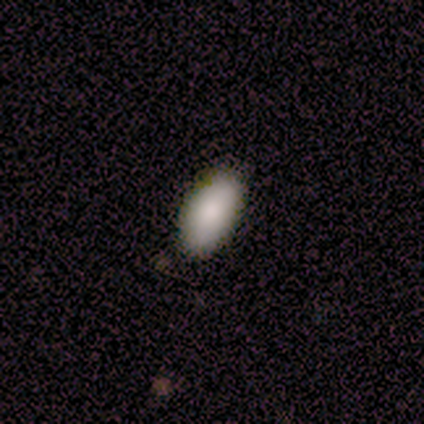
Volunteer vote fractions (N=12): smooth-or-featured: smooth: 83% | featured or disk: 17% | star or artifact: 0%
  how-rounded: in between: 90% | cigar-shaped: 10% | round: 0%
  merging: none: 100% | minor disturbance: 0% | major disturbance: 0% | merger: 0%